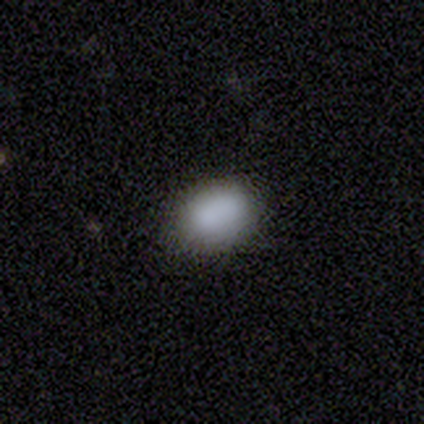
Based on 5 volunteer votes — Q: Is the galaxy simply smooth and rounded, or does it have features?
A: smooth — 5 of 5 (100%).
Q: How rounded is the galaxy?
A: in between — 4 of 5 (80%).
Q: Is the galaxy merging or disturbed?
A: none — 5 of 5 (100%).